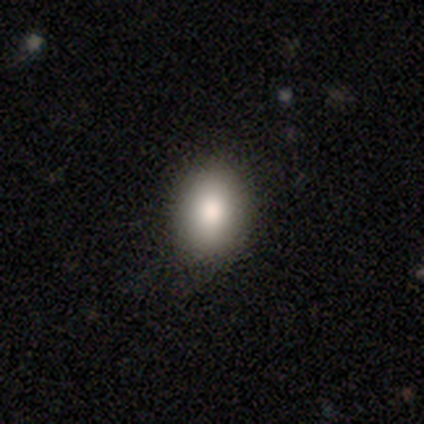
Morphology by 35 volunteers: smooth-or-featured: smooth: 86% | star or artifact: 14% | featured or disk: 0%
  how-rounded: in between: 73% | round: 27% | cigar-shaped: 0%
  merging: none: 70% | minor disturbance: 30% | major disturbance: 0% | merger: 0%